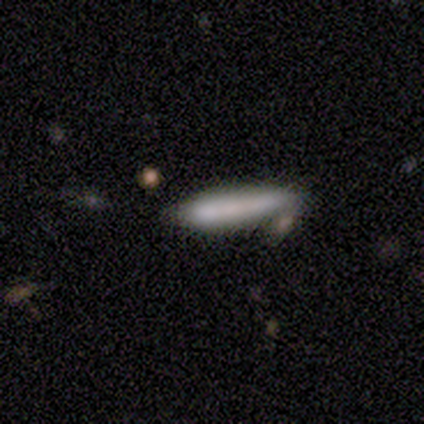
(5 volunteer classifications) Smooth or featured? smooth (80%)
How rounded? cigar-shaped (100%)
Merging? merger (40%)